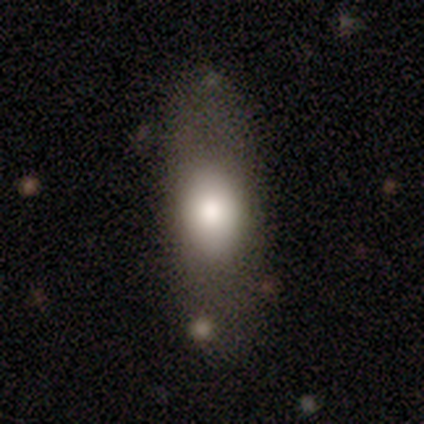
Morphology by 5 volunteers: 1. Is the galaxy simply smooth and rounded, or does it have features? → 100% smooth, 0% featured or disk, 0% star or artifact.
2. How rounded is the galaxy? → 100% in between, 0% round, 0% cigar-shaped.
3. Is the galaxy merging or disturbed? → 80% none, 20% major disturbance, 0% minor disturbance, 0% merger.